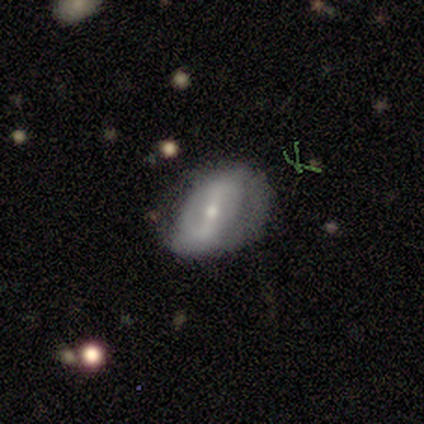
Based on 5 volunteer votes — Q: Smooth or featured?
A: featured or disk (80%); runner-up: star or artifact (20%)
Q: Edge-on disk?
A: no (100%)
Q: Bar?
A: strong (50%); tied with: weak (50%)
Q: Spiral arms?
A: yes (75%); runner-up: no (25%)
Q: Spiral winding?
A: loose (67%); runner-up: medium (33%)
Q: Spiral arm count?
A: 2 (100%)
Q: Bulge size?
A: moderate (75%); runner-up: small (25%)
Q: Merging?
A: none (50%); tied with: minor disturbance (50%)